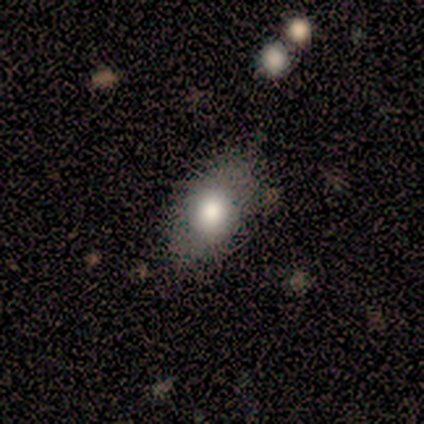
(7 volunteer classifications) Smooth or featured?
  - smooth: 71% *
  - featured or disk: 14%
  - star or artifact: 14%
How rounded?
  - in between: 80% *
  - cigar-shaped: 20%
  - round: 0%
Merging?
  - none: 67% *
  - minor disturbance: 33%
  - major disturbance: 0%
  - merger: 0%